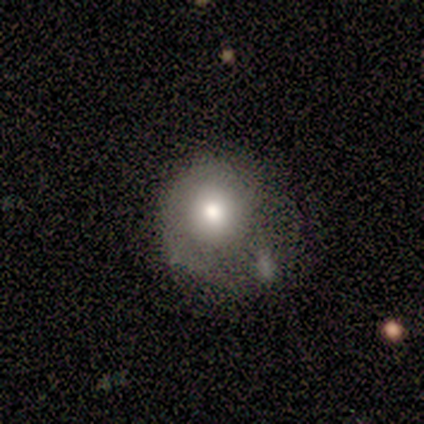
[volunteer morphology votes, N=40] smooth_or_featured: smooth (p=0.65) [alt: featured or disk p=0.25]
how_rounded: round (p=0.85) [alt: in between p=0.15]
merging: minor disturbance (p=0.33) [alt: none p=0.28]